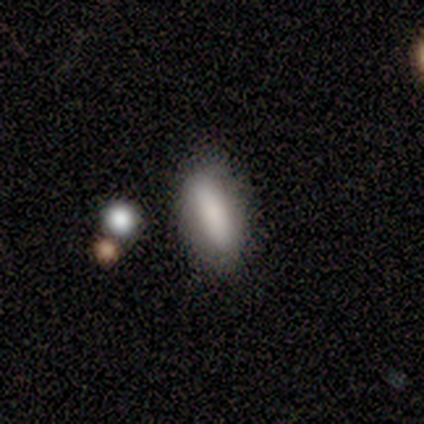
A smooth galaxy with no disk features (60%) that is in between round and cigar-shaped (67%).

Vote fractions:
- Smooth or featured? smooth: 60% / featured or disk: 20% / star or artifact: 20%
- How rounded? in between: 67% / cigar-shaped: 33% / round: 0%
- Merging? minor disturbance: 75% / none: 25% / major disturbance: 0% / merger: 0%